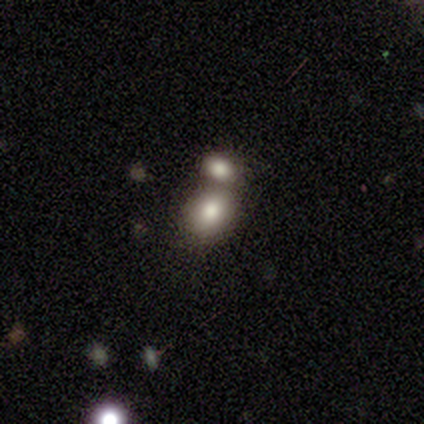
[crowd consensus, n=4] smooth_or_featured: smooth (p=0.50) [tied with: star or artifact p=0.50]
how_rounded: round (p=1.00)
merging: merger (p=1.00)